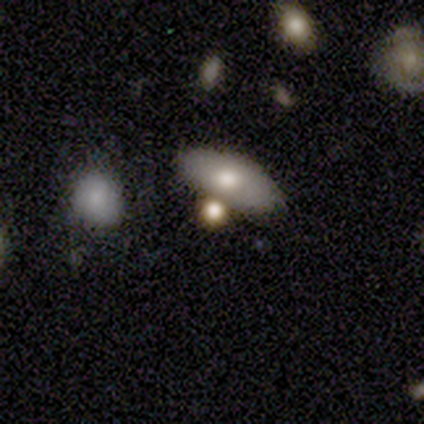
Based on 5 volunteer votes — Smooth or featured?
  - smooth: 80% *
  - featured or disk: 20%
  - star or artifact: 0%
How rounded?
  - in between: 75% *
  - round: 25%
  - cigar-shaped: 0%
Merging?
  - none: 60% *
  - minor disturbance: 20%
  - merger: 20%
  - major disturbance: 0%